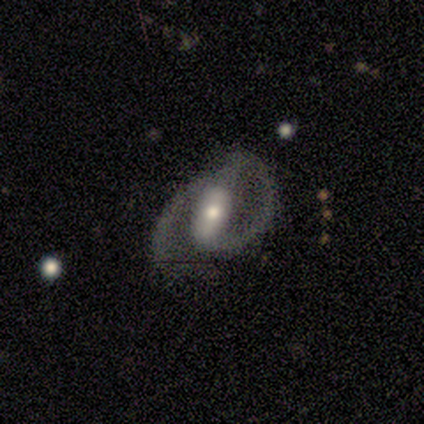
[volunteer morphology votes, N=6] Overall: featured or disk (100%). Edge-on disk: no (83%). Bar: strong (100%). Spiral arms: yes (100%). Spiral arm count: 2 (100%). Spiral winding: medium (60%; loose 40%). Bulge size: moderate (60%; large 20%). Merging: none (67%; minor disturbance 33%).